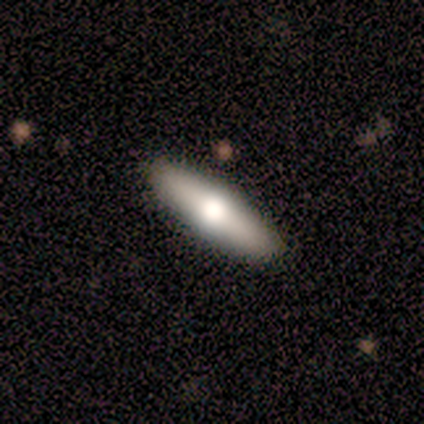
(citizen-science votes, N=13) A smooth galaxy with no disk features (54%) that is cigar-shaped (57%).

Vote fractions:
- Smooth or featured? smooth: 54% / featured or disk: 38% / star or artifact: 8%
- How rounded? cigar-shaped: 57% / in between: 43% / round: 0%
- Merging? none: 83% / minor disturbance: 17% / major disturbance: 0% / merger: 0%